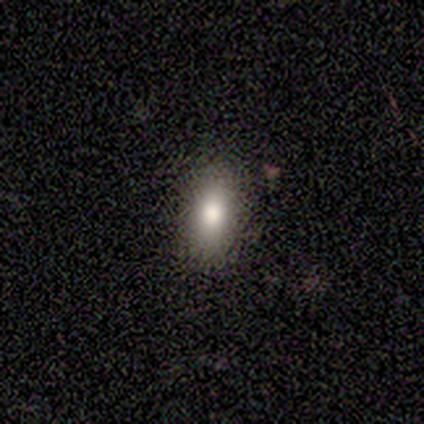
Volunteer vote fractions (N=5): Smooth or featured: smooth — 80% (featured or disk — 20%)
How rounded: in between — 75% (round — 25%)
Merging: none — 100%